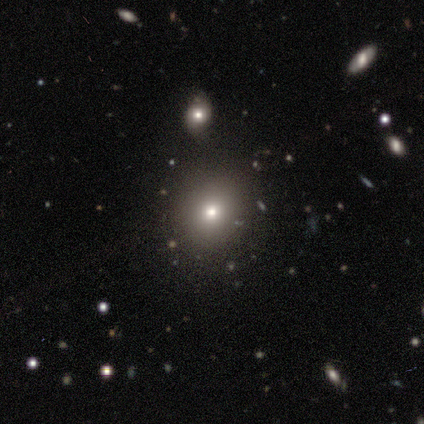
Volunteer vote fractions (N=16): smooth 81%, featured or disk 12%, star or artifact 6%. Down the decision tree: how rounded — round (62%); merging — none (73%).